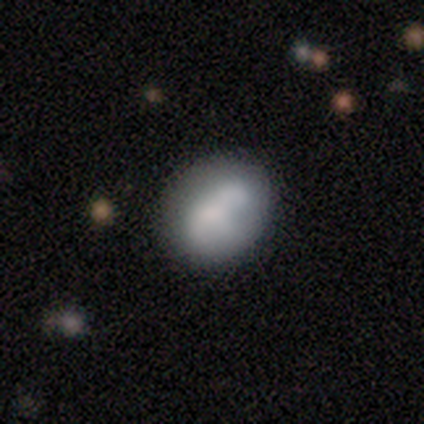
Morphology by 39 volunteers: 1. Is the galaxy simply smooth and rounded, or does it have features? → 74% smooth, 21% featured or disk, 5% star or artifact.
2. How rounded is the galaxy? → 59% in between, 41% round, 0% cigar-shaped.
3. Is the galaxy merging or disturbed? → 68% none, 19% minor disturbance, 8% merger, 5% major disturbance.